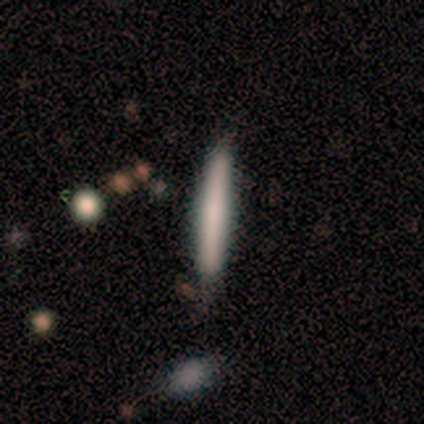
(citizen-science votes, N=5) This appears to be a smooth galaxy with no disk features (60%) that is cigar-shaped (100%). Merging: none (100%).